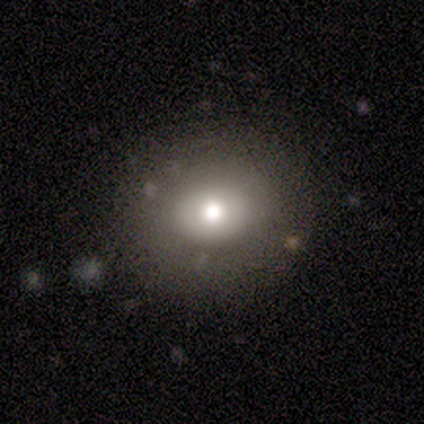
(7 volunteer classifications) Overall: smooth (71%). How rounded: round (80%). Merging: none (100%).